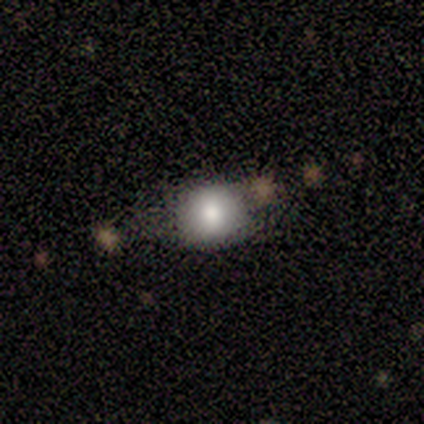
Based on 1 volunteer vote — Q: Smooth or featured?
A: smooth (100%)
Q: How rounded?
A: round (100%)
Q: Merging?
A: minor disturbance (100%)